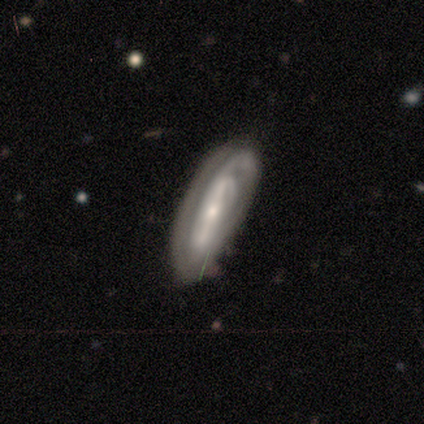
Overall: featured or disk (60%; smooth 40%). Edge-on disk: no (100%). Bar: strong (67%; no 33%). Spiral arms: yes (100%). Spiral arm count: 2 (33%, tied with 3 and can't tell). Spiral winding: tight (67%; medium 33%). Bulge size: moderate (67%; small 33%). Merging: none (80%).